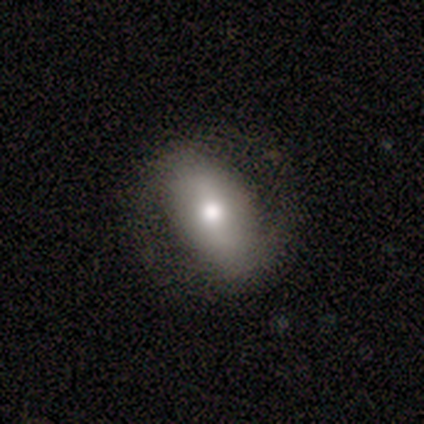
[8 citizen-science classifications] Volunteers were most divided on "smooth or featured": smooth: 50%, featured or disk: 38%, star or artifact: 12%. More confident: how rounded — in between (100%); merging — none (86%).